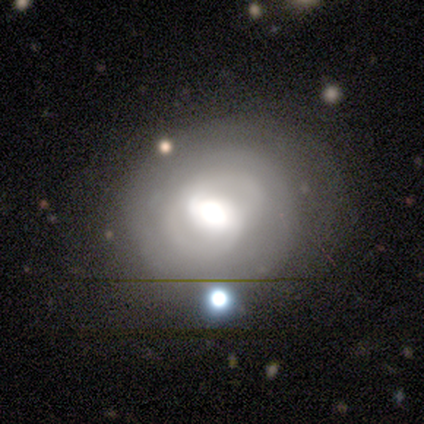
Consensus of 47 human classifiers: Smooth or featured? 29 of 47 (62%) said featured or disk. Edge-on disk? 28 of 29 (97%) said no. Bar? 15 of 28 (54%) said weak. Spiral arms? 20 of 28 (71%) said yes. Spiral winding? 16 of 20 (80%) said tight. Spiral arm count? 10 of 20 (50%) said 2. Bulge size? 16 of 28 (57%) said large. Merging? 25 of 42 (60%) said none.